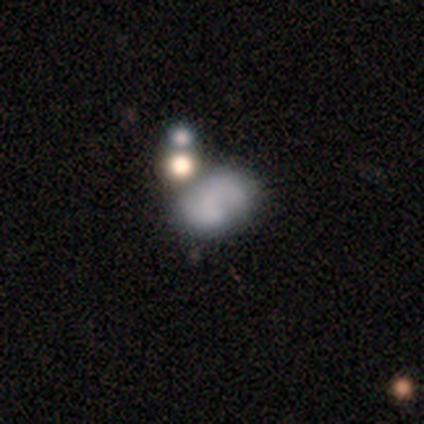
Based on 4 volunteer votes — Smooth or featured? featured or disk (75%)
Edge-on disk? no (100%)
Bar? no (67%)
Spiral arms? no (100%)
Bulge size? none (100%)
Merging? none (33%, tied with minor disturbance and major disturbance)